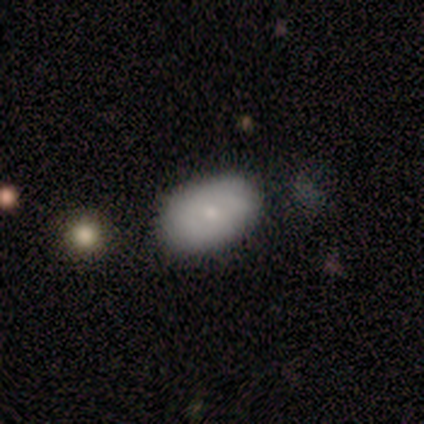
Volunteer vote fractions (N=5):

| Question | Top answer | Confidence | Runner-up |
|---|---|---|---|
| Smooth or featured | smooth | 60% | featured or disk (20%) |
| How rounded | in between | 100% | — |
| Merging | none | 75% | major disturbance (25%) |